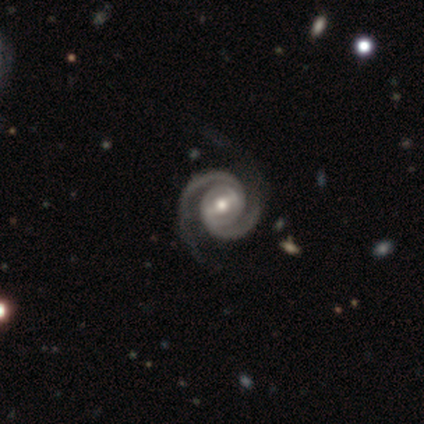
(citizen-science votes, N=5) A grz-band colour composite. It shows a featured or disk galaxy (100%) with a weak bar (60%), 2 (100%) tight (60%) spiral arms (100%) and a moderate central bulge (80%). Merging: none (60%).